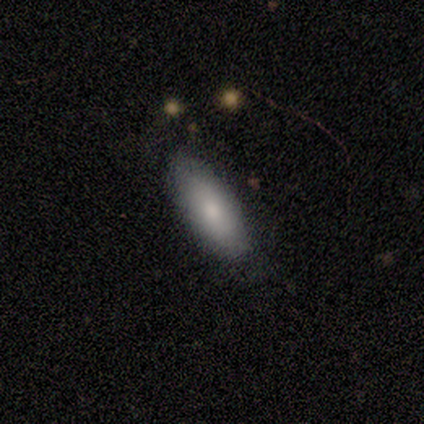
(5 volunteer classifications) Smooth or featured?
  - smooth: 80% *
  - featured or disk: 20%
  - star or artifact: 0%
How rounded?
  - in between: 50% * (tied)
  - cigar-shaped: 50% * (tied)
  - round: 0%
Merging?
  - none: 80% *
  - major disturbance: 20%
  - minor disturbance: 0%
  - merger: 0%